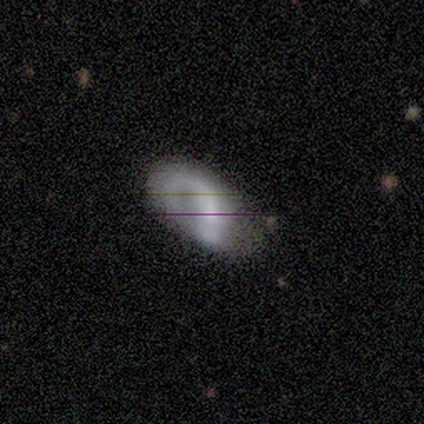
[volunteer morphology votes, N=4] type=smooth (75%); roundness=in between (100%); merging=none (75%).